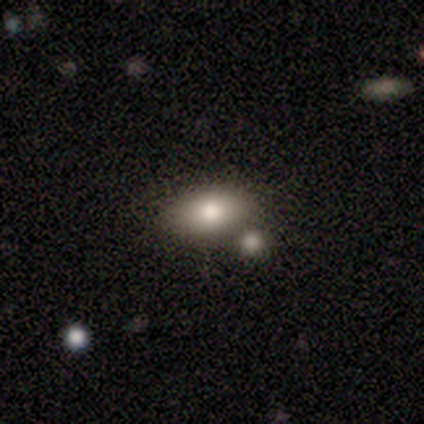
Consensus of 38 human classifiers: smooth_or_featured: smooth (p=0.74) [alt: featured or disk p=0.13]
how_rounded: in between (p=0.86) [alt: round p=0.11]
merging: none (p=0.67) [alt: merger p=0.21]